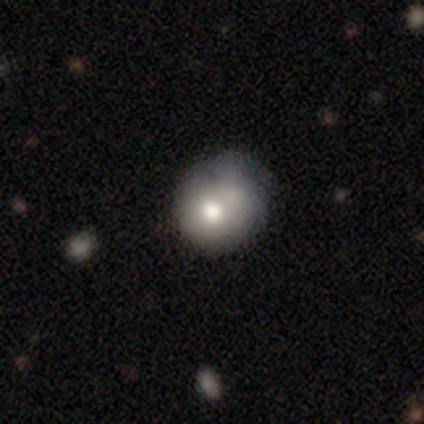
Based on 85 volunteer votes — A smooth galaxy with no disk features (66%) that is round (71%).

Vote fractions:
- Smooth or featured? smooth: 66% / featured or disk: 27% / star or artifact: 7%
- How rounded? round: 71% / in between: 29% / cigar-shaped: 0%
- Merging? none: 35% (tied) / minor disturbance: 35% (tied) / merger: 18% / major disturbance: 11%